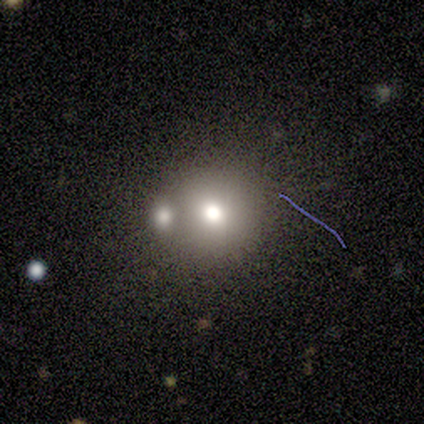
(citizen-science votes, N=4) smooth 50%, featured or disk 25%, star or artifact 25%. Down the decision tree: how rounded — round (100%); merging — none (67%).